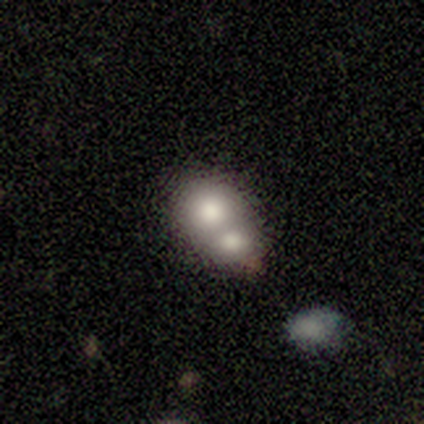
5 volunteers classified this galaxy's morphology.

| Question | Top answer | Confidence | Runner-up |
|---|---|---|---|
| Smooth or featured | featured or disk | 60% | smooth (40%) |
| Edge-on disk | no | 100% | — |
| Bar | no | 100% | — |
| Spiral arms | no | 100% | — |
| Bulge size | moderate | 67% | small (33%) |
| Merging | merger | 40% | none (20%) |